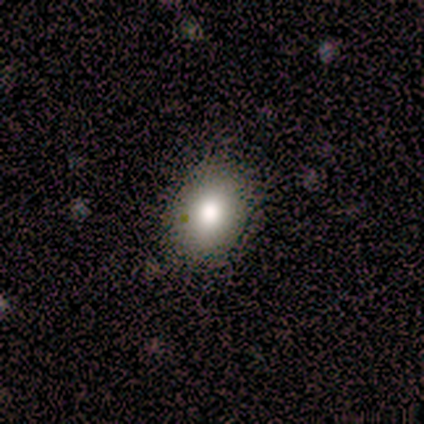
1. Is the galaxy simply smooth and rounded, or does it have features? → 80% smooth, 20% featured or disk, 0% star or artifact.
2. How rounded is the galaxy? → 50% round (tied), 50% in between (tied), 0% cigar-shaped.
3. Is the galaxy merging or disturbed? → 100% none, 0% minor disturbance, 0% major disturbance, 0% merger.